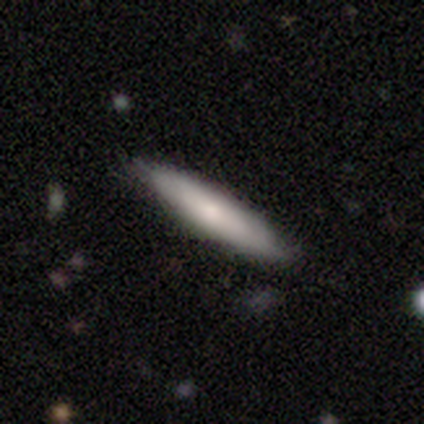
Smooth or featured?
  - smooth: 62% *
  - featured or disk: 33%
  - star or artifact: 5%
How rounded?
  - cigar-shaped: 75% *
  - in between: 25%
  - round: 0%
Merging?
  - none: 92% *
  - minor disturbance: 8%
  - major disturbance: 0%
  - merger: 0%